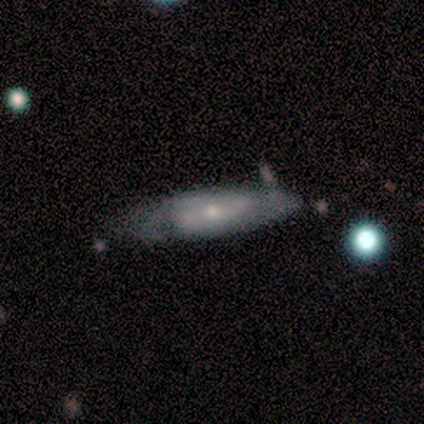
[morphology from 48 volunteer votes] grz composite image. It shows a featured or disk galaxy (60%) with no bar (57%), 2 (53%) tight (47%) spiral arms (81%) and a small central bulge (62%). Merging: none (65%).